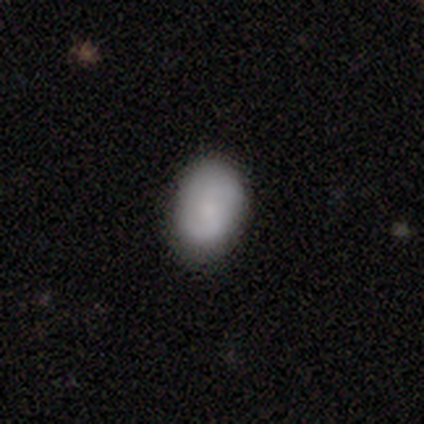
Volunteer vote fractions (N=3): smooth-or-featured: featured or disk: 67% | smooth: 33% | star or artifact: 0%
  disk-edge-on: no: 100% | yes: 0%
    bar: no: 100% | strong: 0% | weak: 0%
    has-spiral-arms: yes: 100% | no: 0%
      spiral-winding: loose: 100% | tight: 0% | medium: 0%
      spiral-arm-count: 2: 100% | 1: 0% | 3: 0% | 4: 0% | more than 4: 0% | can't tell: 0%
    bulge-size: moderate: 50% (tied) | small: 50% (tied) | dominant: 0% | large: 0% | none: 0%
  merging: none: 67% | minor disturbance: 33% | major disturbance: 0% | merger: 0%